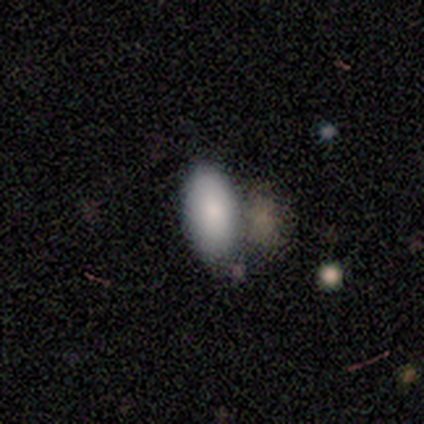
This appears to be a smooth galaxy with no disk features (83%) that is in between round and cigar-shaped (86%). Merging: none (53%).